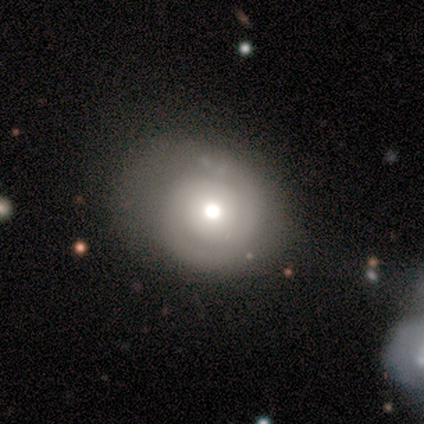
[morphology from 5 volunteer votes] Smooth or featured? featured or disk (80%)
Edge-on disk? no (100%)
Bar? no (75%)
Spiral arms? yes (75%)
Spiral winding? tight (100%)
Spiral arm count? 2 (100%)
Bulge size? moderate (100%)
Merging? none (80%)